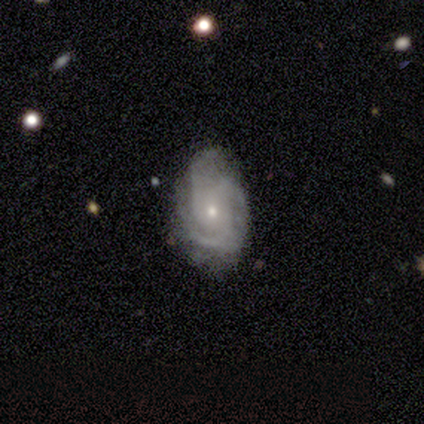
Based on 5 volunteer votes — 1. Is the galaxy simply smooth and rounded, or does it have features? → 100% featured or disk, 0% smooth, 0% star or artifact.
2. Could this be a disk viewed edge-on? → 60% no, 40% yes.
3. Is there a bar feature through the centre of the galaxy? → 100% no, 0% strong, 0% weak.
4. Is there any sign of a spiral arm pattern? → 100% yes, 0% no.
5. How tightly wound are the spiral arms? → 67% tight, 33% medium, 0% loose.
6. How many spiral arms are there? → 33% 2 (tied), 33% 3 (tied), 33% can't tell (tied), 0% 1, 0% 4, 0% more than 4.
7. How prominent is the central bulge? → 67% moderate, 33% small, 0% dominant, 0% large, 0% none.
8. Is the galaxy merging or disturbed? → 60% none, 20% minor disturbance, 20% merger, 0% major disturbance.